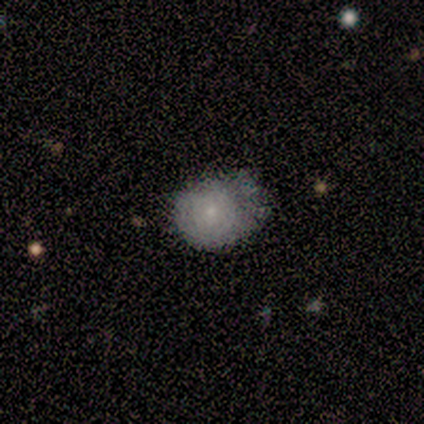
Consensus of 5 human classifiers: featured or disk 60%, smooth 40%, star or artifact 0%. Down the decision tree: edge-on disk — no (100%); bar — no (100%); spiral arms — no (100%); bulge size — small (100%); merging — none (40%, tied with minor disturbance).